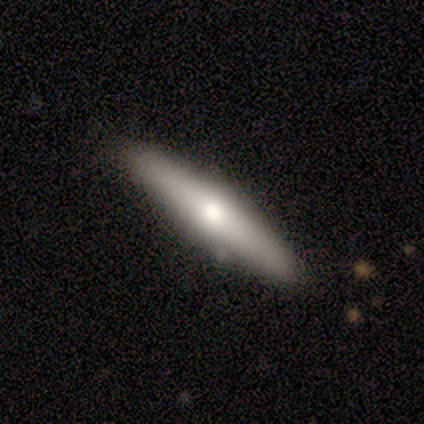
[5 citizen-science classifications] A smooth galaxy with no disk features (80%) that is cigar-shaped (75%).

Vote fractions:
- Smooth or featured? smooth: 80% / featured or disk: 20% / star or artifact: 0%
- How rounded? cigar-shaped: 75% / in between: 25% / round: 0%
- Merging? none: 80% / minor disturbance: 20% / major disturbance: 0% / merger: 0%